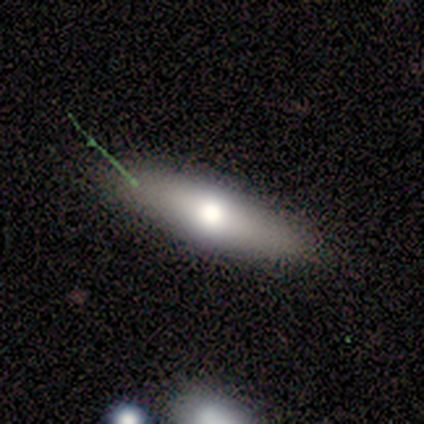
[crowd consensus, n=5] This appears to be a featured or disk galaxy (60%) with no bar (100%), no spiral arms (100%) and a large central bulge (100%). Merging: none (100%).